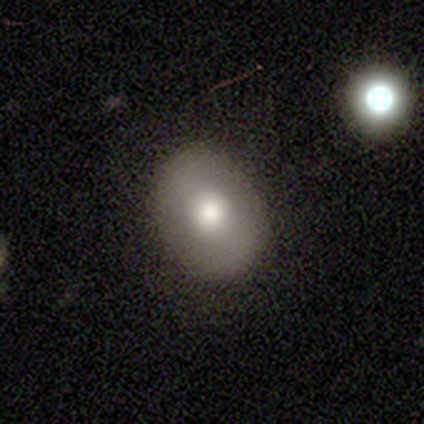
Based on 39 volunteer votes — Smooth or featured: smooth — 67% (featured or disk — 33%)
How rounded: in between — 62% (round — 35%)
Merging: none — 59% (minor disturbance — 5%)